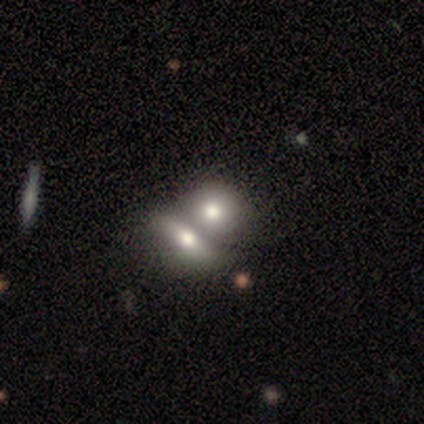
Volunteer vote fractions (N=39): A smooth galaxy with no disk features (85%) that is in between round and cigar-shaped (58%).

Vote fractions:
- Smooth or featured? smooth: 85% / featured or disk: 13% / star or artifact: 3%
- How rounded? in between: 58% / round: 42% / cigar-shaped: 0%
- Merging? merger: 71% / none: 21% / minor disturbance: 5% / major disturbance: 3%